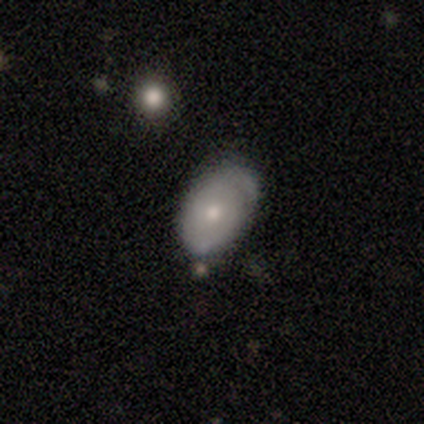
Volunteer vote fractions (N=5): This is marginally a smooth galaxy (40%, tied with featured or disk). How rounded: clearly in between (100%). Merging: likely none (75%).